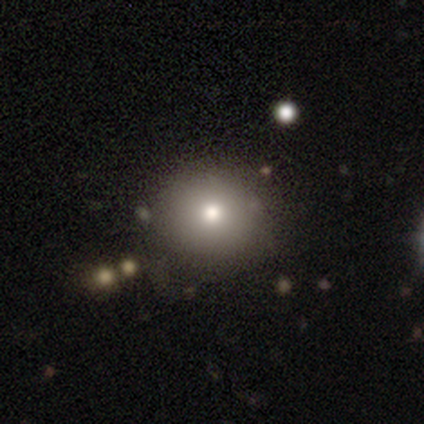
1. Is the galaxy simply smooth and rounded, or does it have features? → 60% smooth, 40% featured or disk, 0% star or artifact.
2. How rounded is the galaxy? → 100% round, 0% in between, 0% cigar-shaped.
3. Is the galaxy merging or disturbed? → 100% none, 0% minor disturbance, 0% major disturbance, 0% merger.